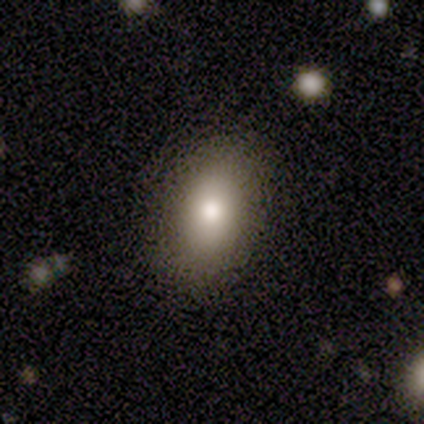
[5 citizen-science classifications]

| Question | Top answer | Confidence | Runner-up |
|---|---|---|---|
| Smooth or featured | featured or disk | 60% | smooth (40%) |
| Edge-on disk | no | 67% | yes (33%) |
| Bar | no | 100% | — |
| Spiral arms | yes | 50% | tied: no (50%) |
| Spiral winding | tight | 100% | — |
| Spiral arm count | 2 | 100% | — |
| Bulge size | moderate | 100% | — |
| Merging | none | 100% | — |